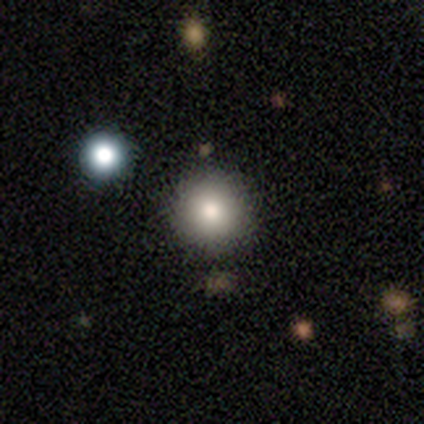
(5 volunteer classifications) A smooth galaxy with no disk features (100%) that is round (100%). Merging: none (80%).